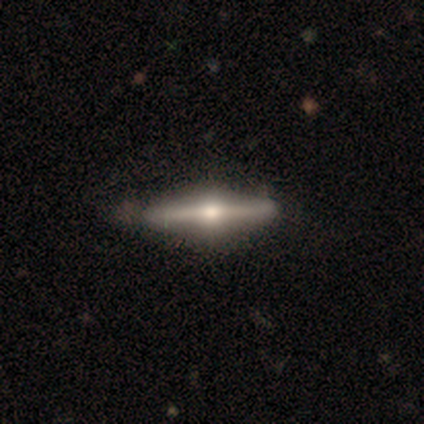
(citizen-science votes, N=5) A featured or disk galaxy (100%) viewed edge-on (100%) with a rounded central bulge (100%).

Vote fractions:
- Smooth or featured? featured or disk: 100% / smooth: 0% / star or artifact: 0%
- Edge-on disk? yes: 100% / no: 0%
- Edge-on bulge? rounded: 100% / boxy: 0% / none: 0%
- Merging? none: 80% / minor disturbance: 20% / major disturbance: 0% / merger: 0%